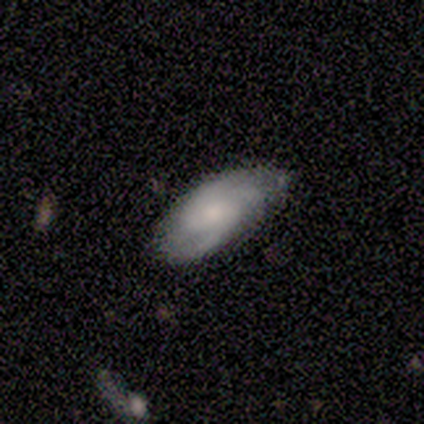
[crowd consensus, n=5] Morphology: type=smooth (60%); roundness=in between (100%); merging=none (40%, tied with minor disturbance).